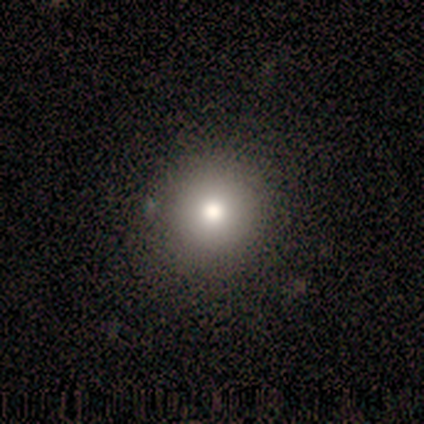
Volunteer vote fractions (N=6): Smooth or featured: smooth — 67% (featured or disk — 33%)
How rounded: round — 100%
Merging: none — 100%